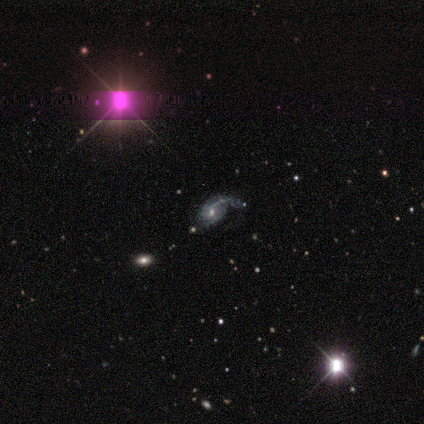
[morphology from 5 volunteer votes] A featured or disk galaxy (80%) with a weak bar (50%, tied with no), 1 (33%, tied with 2 and can't tell) loose (100%) spiral arms (75%) and a moderate central bulge (75%).

Vote fractions:
- Smooth or featured? featured or disk: 80% / star or artifact: 20% / smooth: 0%
- Edge-on disk? no: 100% / yes: 0%
- Bar? weak: 50% (tied) / no: 50% (tied) / strong: 0%
- Spiral arms? yes: 75% / no: 25%
- Spiral winding? loose: 100% / tight: 0% / medium: 0%
- Spiral arm count? 1: 33% (tied) / 2: 33% (tied) / can't tell: 33% (tied) / 3: 0% / 4: 0% / more than 4: 0%
- Bulge size? moderate: 75% / large: 25% / dominant: 0% / small: 0% / none: 0%
- Merging? none: 25% (tied) / minor disturbance: 25% (tied) / major disturbance: 25% (tied) / merger: 25% (tied)